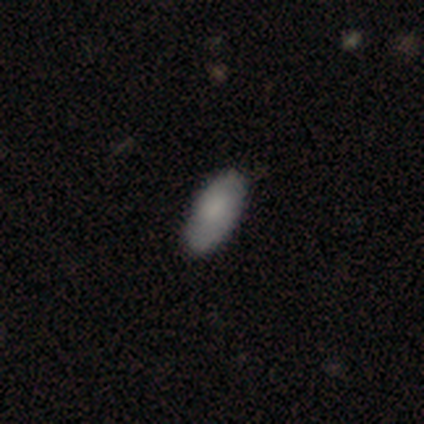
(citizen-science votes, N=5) A smooth galaxy with no disk features (60%) that is in between round and cigar-shaped (67%). Merging: none (100%).